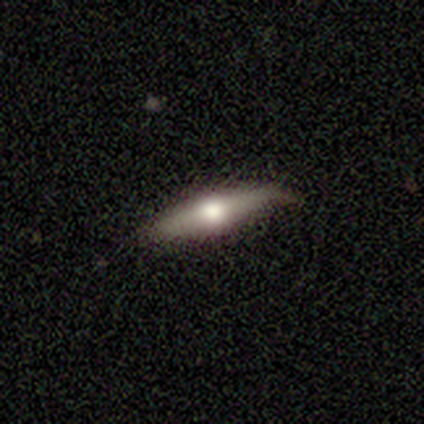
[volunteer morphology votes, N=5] This is likely a featured or disk galaxy (60%). It is likely viewed edge-on (67%). Edge-on bulge: clearly rounded (100%). Merging: likely none (60%).